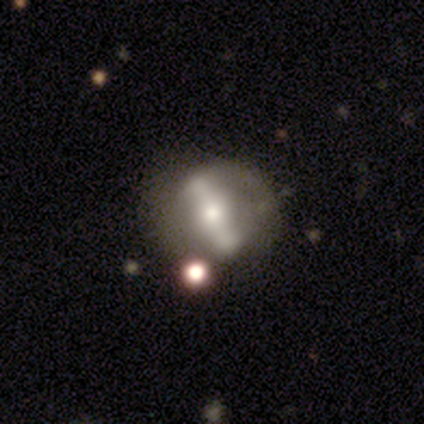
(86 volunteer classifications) Smooth or featured?
  - featured or disk: 74% *
  - smooth: 17%
  - star or artifact: 8%
Edge-on disk?
  - no: 84% *
  - yes: 16%
Bar?
  - strong: 83% *
  - weak: 11%
  - no: 6%
Spiral arms?
  - no: 70% *
  - yes: 30%
Bulge size?
  - moderate: 56% *
  - small: 24%
  - large: 19%
  - none: 2%
  - dominant: 0%
Merging?
  - none: 66% *
  - major disturbance: 15%
  - minor disturbance: 11%
  - merger: 8%